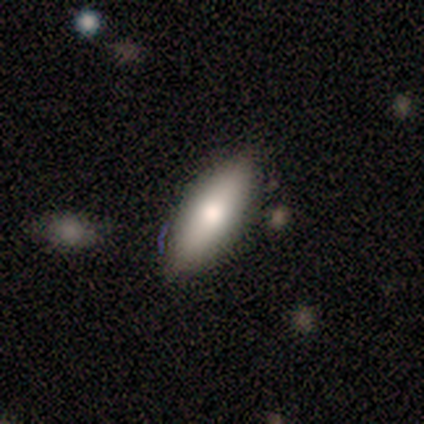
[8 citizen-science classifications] Smooth or featured? 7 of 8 (88%) said smooth. How rounded? 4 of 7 (57%) said cigar-shaped. Merging? 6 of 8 (75%) said none.